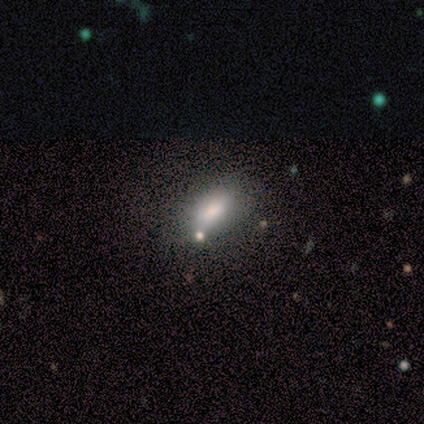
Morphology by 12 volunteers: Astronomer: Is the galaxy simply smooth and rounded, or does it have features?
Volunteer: smooth — 92%.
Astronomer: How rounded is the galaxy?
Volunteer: in between — 100%.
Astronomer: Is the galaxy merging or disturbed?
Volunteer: none — 75%.